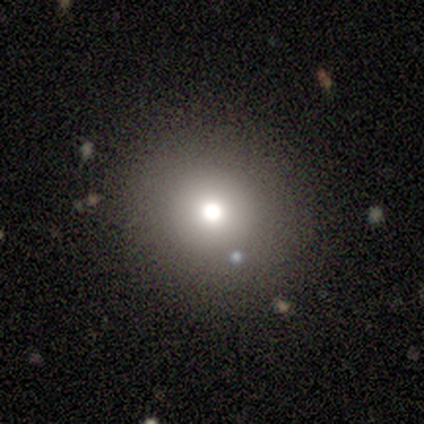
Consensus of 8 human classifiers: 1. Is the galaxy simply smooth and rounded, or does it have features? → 88% smooth, 12% featured or disk, 0% star or artifact.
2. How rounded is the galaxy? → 71% round, 29% in between, 0% cigar-shaped.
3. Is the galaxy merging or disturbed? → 100% none, 0% minor disturbance, 0% major disturbance, 0% merger.